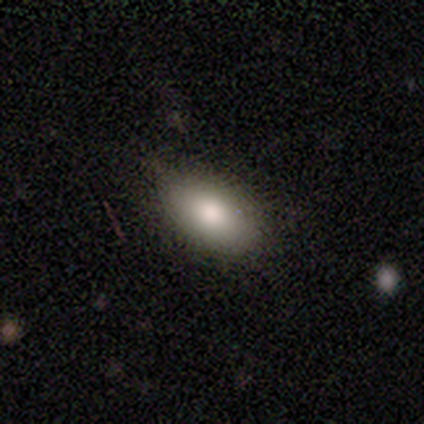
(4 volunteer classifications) This appears to be a smooth galaxy with no disk features (100%) that is in between round and cigar-shaped (100%). Merging: none (100%).